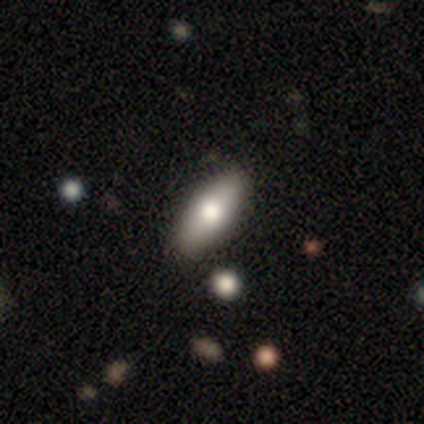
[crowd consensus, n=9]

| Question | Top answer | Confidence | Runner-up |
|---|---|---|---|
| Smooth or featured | smooth | 56% | featured or disk (44%) |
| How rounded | in between | 80% | cigar-shaped (20%) |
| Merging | none | 78% | minor disturbance (22%) |